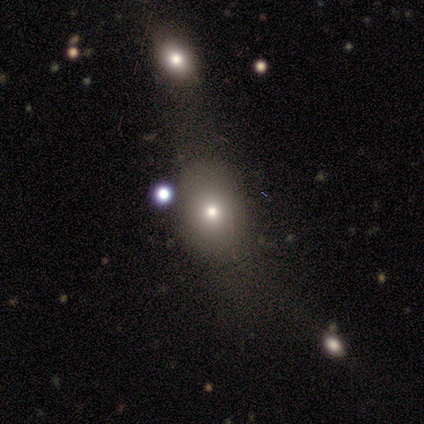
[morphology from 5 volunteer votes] Volunteers were most divided on "how rounded": in between: 60%, round: 40%, cigar-shaped: 0%. More confident: smooth or featured — smooth (100%); merging — none (100%).